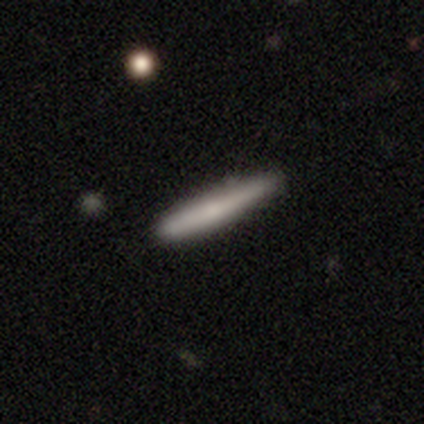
Volunteers were most divided on "merging": none: 43%, minor disturbance: 6%, major disturbance: 1%, merger: 1%. More confident: how rounded — cigar-shaped (98%); smooth or featured — smooth (71%).